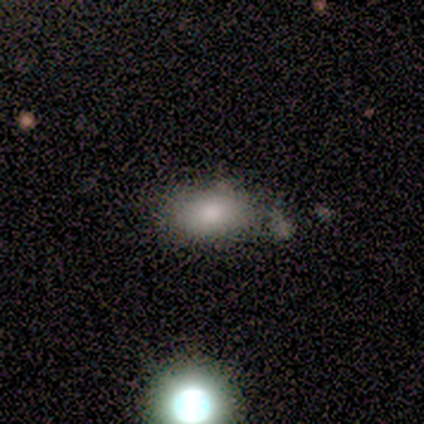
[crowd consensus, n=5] A smooth galaxy with no disk features (80%) that is in between round and cigar-shaped (100%).

Vote fractions:
- Smooth or featured? smooth: 80% / featured or disk: 20% / star or artifact: 0%
- How rounded? in between: 100% / round: 0% / cigar-shaped: 0%
- Merging? minor disturbance: 60% / none: 40% / major disturbance: 0% / merger: 0%